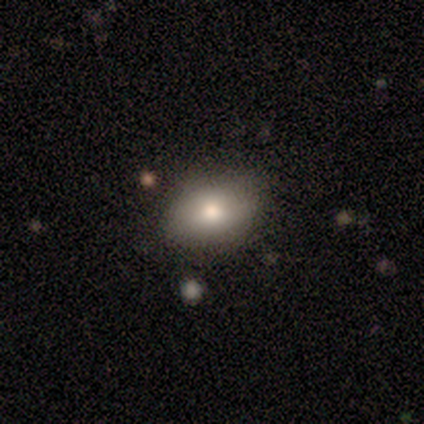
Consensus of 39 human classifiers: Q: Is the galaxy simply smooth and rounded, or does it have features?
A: smooth — 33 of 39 (85%).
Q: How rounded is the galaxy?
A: in between — 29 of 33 (88%).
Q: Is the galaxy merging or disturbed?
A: none — 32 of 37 (86%).